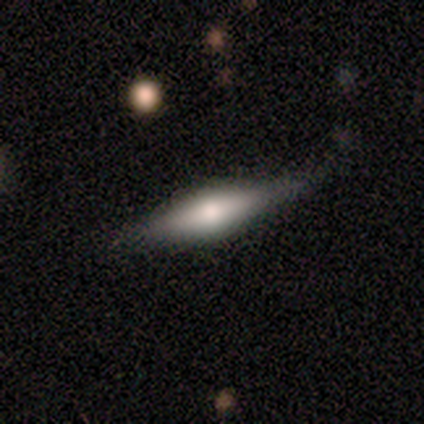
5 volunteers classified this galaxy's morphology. Q: Smooth or featured?
A: featured or disk (80%); runner-up: smooth (20%)
Q: Edge-on disk?
A: yes (75%); runner-up: no (25%)
Q: Edge-on bulge?
A: rounded (67%); runner-up: none (33%)
Q: Merging?
A: none (80%); runner-up: merger (20%)